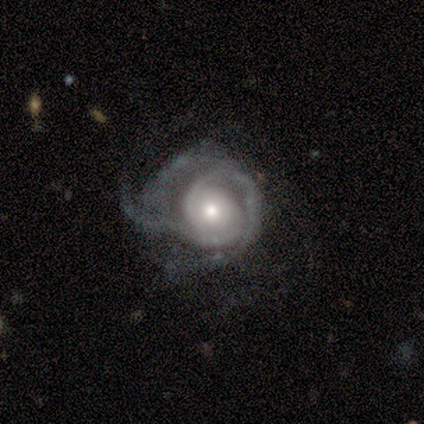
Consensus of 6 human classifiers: A featured or disk galaxy (100%) with no bar (67%), 2 (40%) tight (60%) spiral arms (83%) and a moderate central bulge (50%).

Vote fractions:
- Smooth or featured? featured or disk: 100% / smooth: 0% / star or artifact: 0%
- Edge-on disk? no: 100% / yes: 0%
- Bar? no: 67% / weak: 33% / strong: 0%
- Spiral arms? yes: 83% / no: 17%
- Spiral winding? tight: 60% / medium: 20% / loose: 20%
- Spiral arm count? 2: 40% / 3: 20% / 4: 20% / can't tell: 20% / 1: 0% / more than 4: 0%
- Bulge size? moderate: 50% / large: 33% / small: 17% / dominant: 0% / none: 0%
- Merging? major disturbance: 67% / minor disturbance: 33% / none: 0% / merger: 0%